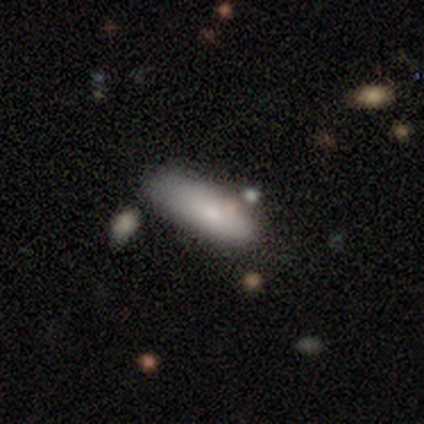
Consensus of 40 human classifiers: Morphology: type=smooth (78%); roundness=in between (68%); merging=none (40%).